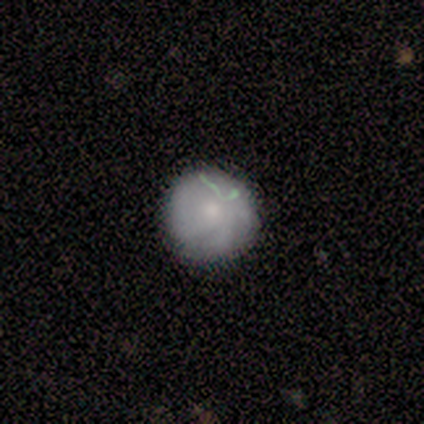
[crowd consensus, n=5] A smooth galaxy with no disk features (40%, tied with featured or disk) that is round (100%).

Vote fractions:
- Smooth or featured? smooth: 40% (tied) / featured or disk: 40% (tied) / star or artifact: 20%
- How rounded? round: 100% / in between: 0% / cigar-shaped: 0%
- Merging? none: 75% / minor disturbance: 25% / major disturbance: 0% / merger: 0%